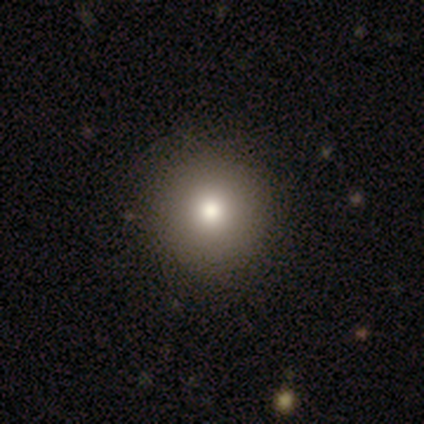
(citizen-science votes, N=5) This is likely a smooth galaxy (60%). How rounded: clearly round (100%). Merging: clearly none (100%).